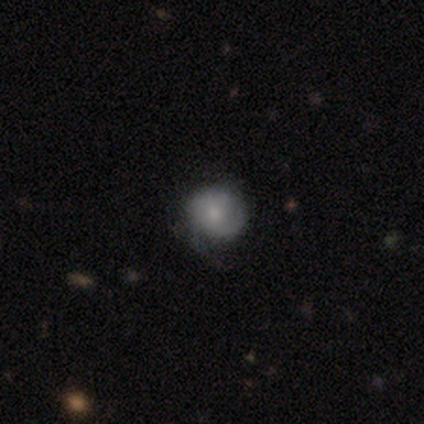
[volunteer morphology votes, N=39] Smooth or featured?
  - smooth: 59% *
  - featured or disk: 41%
  - star or artifact: 0%
How rounded?
  - round: 96% *
  - in between: 4%
  - cigar-shaped: 0%
Merging?
  - none: 59% *
  - minor disturbance: 28%
  - major disturbance: 13%
  - merger: 0%